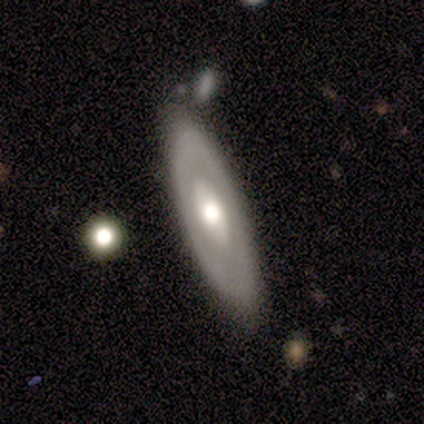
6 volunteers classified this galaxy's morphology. smooth-or-featured: smooth: 67% | featured or disk: 33% | star or artifact: 0%
  how-rounded: in between: 75% | round: 25% | cigar-shaped: 0%
  merging: none: 83% | minor disturbance: 17% | major disturbance: 0% | merger: 0%